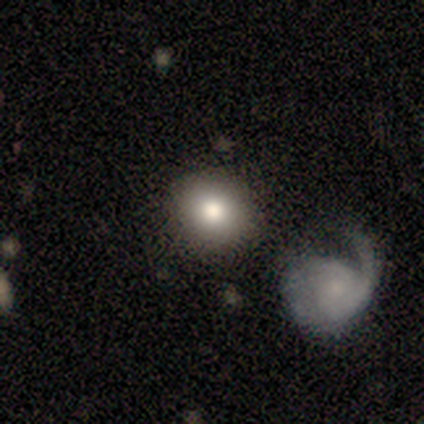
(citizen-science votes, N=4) Smooth or featured? smooth (75%)
How rounded? round (67%)
Merging? none (100%)